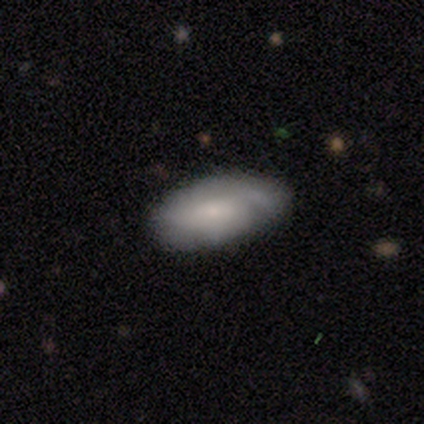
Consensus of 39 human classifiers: Smooth or featured?
  - featured or disk: 59% *
  - smooth: 41%
  - star or artifact: 0%
Edge-on disk?
  - no: 83% *
  - yes: 17%
Bar?
  - no: 68% *
  - weak: 26%
  - strong: 5%
Spiral arms?
  - yes: 84% *
  - no: 16%
Spiral winding?
  - medium: 56% *
  - tight: 25%
  - loose: 19%
Spiral arm count?
  - can't tell: 38% *
  - 1: 31%
  - 3: 19%
  - 2: 12%
  - 4: 0%
  - more than 4: 0%
Bulge size?
  - small: 58% *
  - moderate: 32%
  - large: 5%
  - none: 5%
  - dominant: 0%
Merging?
  - none: 46% *
  - minor disturbance: 23%
  - merger: 5%
  - major disturbance: 3%